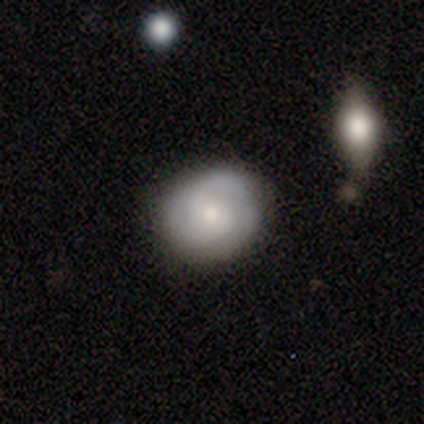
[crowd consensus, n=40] Volunteers were most divided on "spiral winding": medium: 47%, tight: 33%, loose: 20%. Remaining: edge-on disk — no (96%); merging — none (82%); bar — no (73%); spiral arms — yes (68%); bulge size — small (64%); smooth or featured — featured or disk (57%); spiral arm count — 2 (47%).